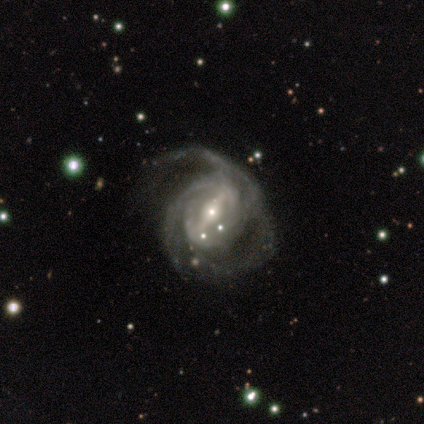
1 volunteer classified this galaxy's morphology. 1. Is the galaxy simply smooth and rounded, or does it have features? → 100% featured or disk, 0% smooth, 0% star or artifact.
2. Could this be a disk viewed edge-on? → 100% no, 0% yes.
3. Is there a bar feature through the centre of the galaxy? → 100% strong, 0% weak, 0% no.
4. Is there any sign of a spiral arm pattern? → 100% yes, 0% no.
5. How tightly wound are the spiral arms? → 100% medium, 0% tight, 0% loose.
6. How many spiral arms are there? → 100% 3, 0% 1, 0% 2, 0% 4, 0% more than 4, 0% can't tell.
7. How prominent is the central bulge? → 100% small, 0% dominant, 0% large, 0% moderate, 0% none.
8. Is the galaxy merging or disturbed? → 100% major disturbance, 0% none, 0% minor disturbance, 0% merger.